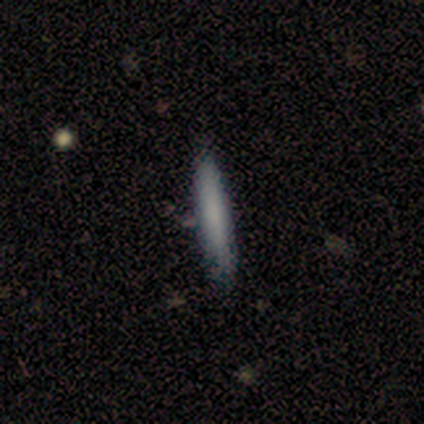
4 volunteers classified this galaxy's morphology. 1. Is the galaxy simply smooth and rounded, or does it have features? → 100% smooth, 0% featured or disk, 0% star or artifact.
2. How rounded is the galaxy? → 100% cigar-shaped, 0% round, 0% in between.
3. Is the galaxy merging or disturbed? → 100% none, 0% minor disturbance, 0% major disturbance, 0% merger.